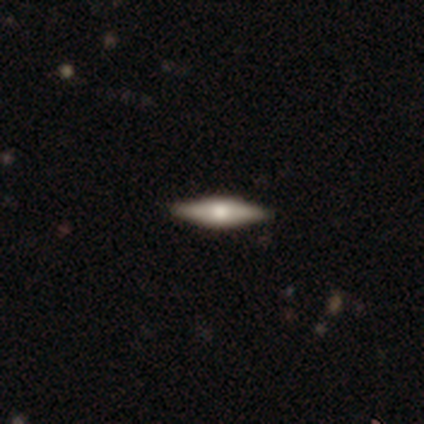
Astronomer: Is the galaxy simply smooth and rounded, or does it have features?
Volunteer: featured or disk — 60% (runner-up: smooth, 40%).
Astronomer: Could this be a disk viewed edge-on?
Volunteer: yes — 100%.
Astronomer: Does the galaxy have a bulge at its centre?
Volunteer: rounded — 67%.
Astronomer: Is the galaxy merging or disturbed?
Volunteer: none — 60% (runner-up: minor disturbance, 40%).